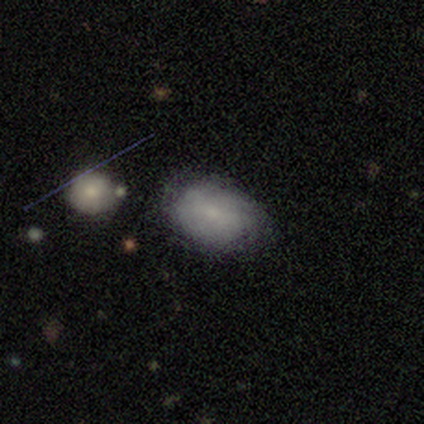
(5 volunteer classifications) This appears to be a smooth galaxy with no disk features (40%, tied with star or artifact) that is in between round and cigar-shaped (100%). Merging: none (67%).